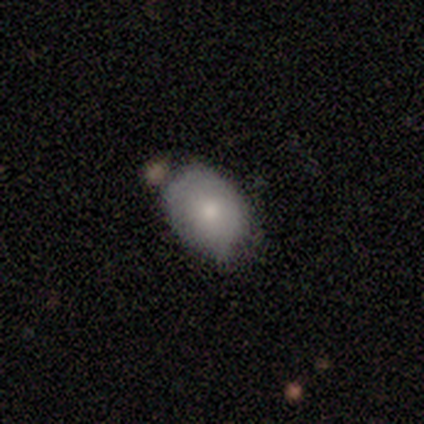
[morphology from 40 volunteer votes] Overall: smooth (62%; featured or disk 28%). How rounded: in between (84%). Merging: none (53%; minor disturbance 28%).